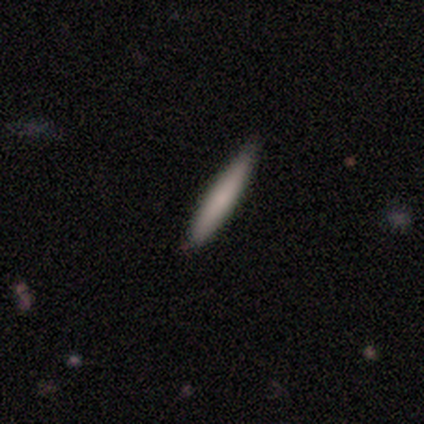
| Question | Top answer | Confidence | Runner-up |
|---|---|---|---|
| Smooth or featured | smooth | 100% | — |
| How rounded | cigar-shaped | 100% | — |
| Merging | none | 100% | — |